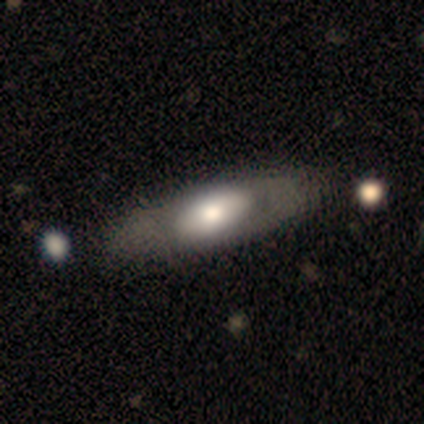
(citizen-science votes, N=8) Volunteers were most divided on "merging": none: 50%, minor disturbance: 38%, major disturbance: 12%, merger: 0%. More confident: edge-on disk — no (80%); bar — no (75%); spiral arms — no (75%); smooth or featured — featured or disk (62%); bulge size — large (50%).